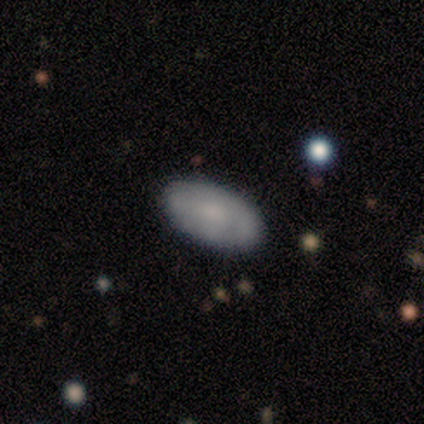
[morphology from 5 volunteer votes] Overall: smooth (80%). How rounded: in between (75%). Merging: none (100%).